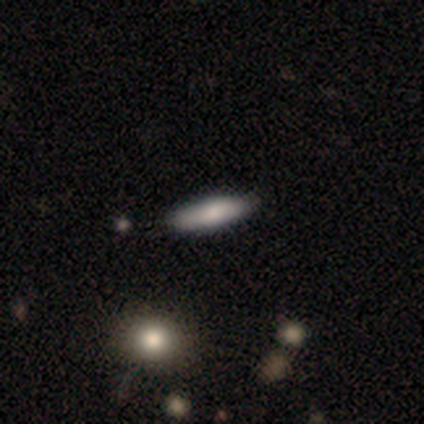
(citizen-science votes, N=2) Smooth or featured?
  - smooth: 50% * (tied)
  - star or artifact: 50% * (tied)
  - featured or disk: 0%
How rounded?
  - in between: 100% *
  - round: 0%
  - cigar-shaped: 0%
Merging?
  - none: 100% *
  - minor disturbance: 0%
  - major disturbance: 0%
  - merger: 0%